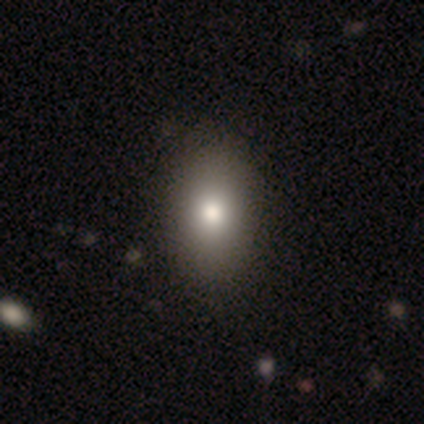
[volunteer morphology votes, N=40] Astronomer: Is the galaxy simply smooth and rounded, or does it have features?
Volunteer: smooth — 85%.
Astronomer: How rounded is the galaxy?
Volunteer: in between — 94%.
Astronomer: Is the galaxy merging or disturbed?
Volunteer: none — 51%.